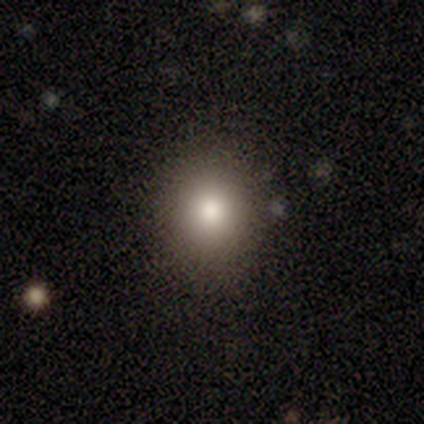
Smooth or featured? 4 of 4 (100%) said smooth. How rounded? 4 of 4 (100%) said round. Merging? 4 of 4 (100%) said none.